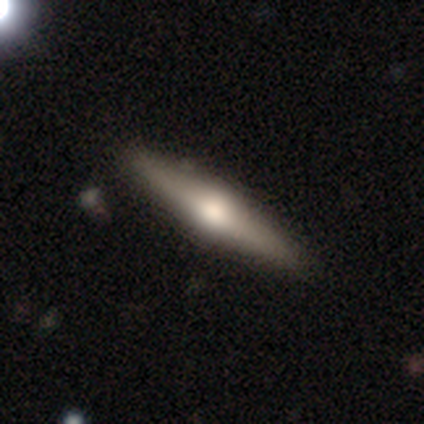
Overall: featured or disk (80%). Edge-on disk: yes (100%). Edge-on bulge: rounded (100%). Merging: none (60%; minor disturbance 40%).